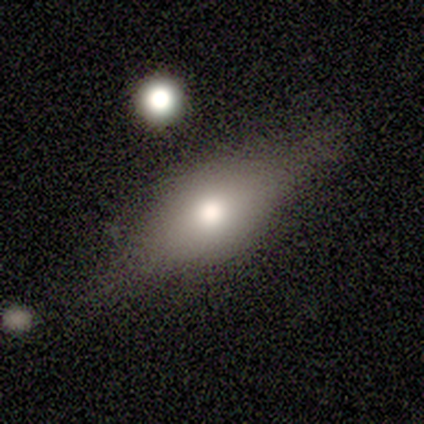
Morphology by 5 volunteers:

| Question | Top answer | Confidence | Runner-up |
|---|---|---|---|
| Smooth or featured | smooth | 60% | featured or disk (40%) |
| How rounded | in between | 100% | — |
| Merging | minor disturbance | 60% | none (40%) |